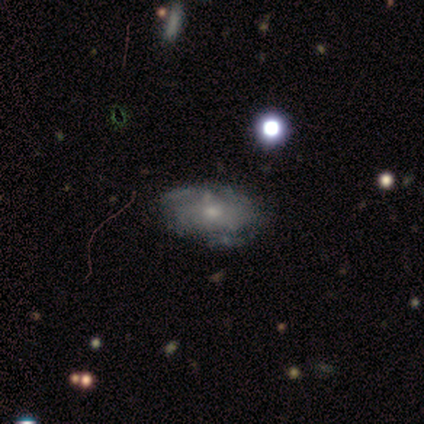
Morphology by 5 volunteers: smooth_or_featured: featured or disk (p=0.80) [alt: smooth p=0.20]
disk_edge_on: no (p=0.75) [alt: yes p=0.25]
bar: no (p=0.67) [alt: strong p=0.33]
has_spiral_arms: yes (p=0.67) [alt: no p=0.33]
spiral_winding: tight (p=1.00)
spiral_arm_count: 2 (p=0.50) [tied with: can't tell p=0.50]
bulge_size: small (p=0.67) [alt: moderate p=0.33]
merging: none (p=1.00)